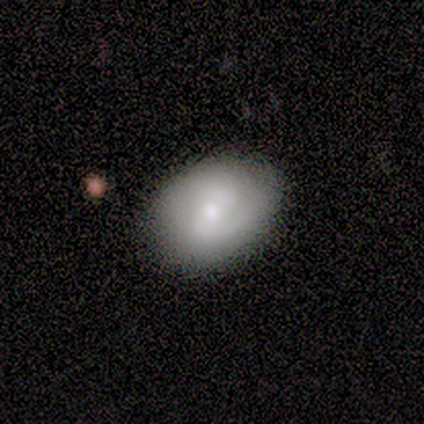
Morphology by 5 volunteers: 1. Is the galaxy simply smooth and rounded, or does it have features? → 40% smooth (tied), 40% star or artifact (tied), 20% featured or disk.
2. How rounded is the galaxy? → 50% round (tied), 50% in between (tied), 0% cigar-shaped.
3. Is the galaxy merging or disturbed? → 33% none (tied), 33% minor disturbance (tied), 33% major disturbance (tied), 0% merger.